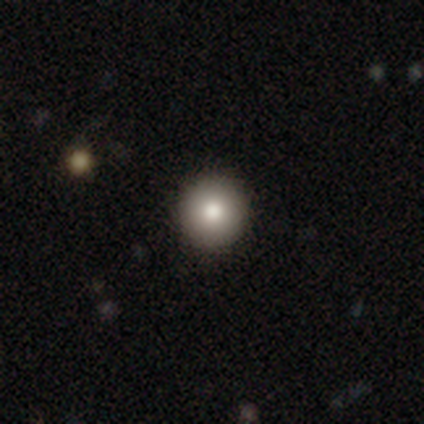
Overall: smooth (100%). How rounded: round (100%). Merging: none (100%).